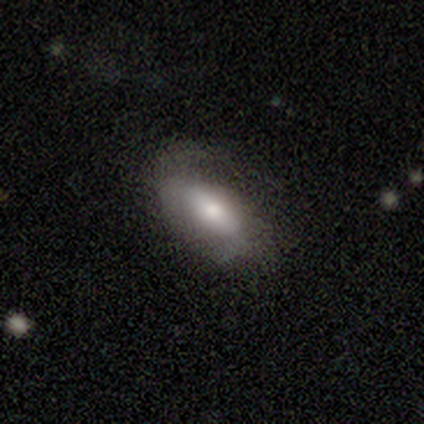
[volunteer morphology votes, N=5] smooth_or_featured: smooth (p=0.40) [tied with: star or artifact p=0.40]
how_rounded: in between (p=0.50) [tied with: cigar-shaped p=0.50]
merging: none (p=0.33) [tied with: minor disturbance p=0.33, major disturbance p=0.33]